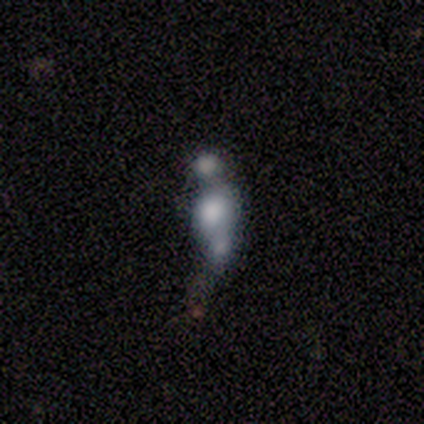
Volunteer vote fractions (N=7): smooth_or_featured: smooth (p=0.57) [alt: featured or disk p=0.43]
how_rounded: in between (p=0.75) [alt: cigar-shaped p=0.25]
merging: merger (p=0.57) [alt: none p=0.14]